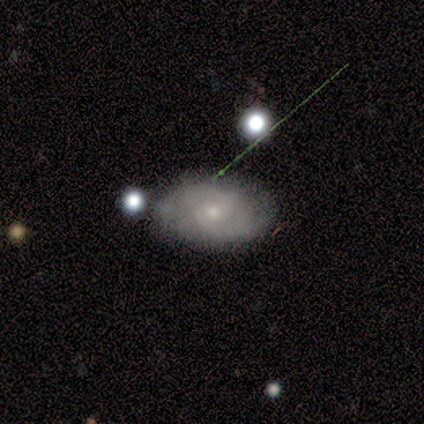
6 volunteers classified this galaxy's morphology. This appears to be a featured or disk galaxy (50%, tied with star or artifact) with no bar (100%), 2 (50%, tied with can't tell) tight (50%, tied with medium) spiral arms (67%) and a small central bulge (100%). Merging: minor disturbance (67%).